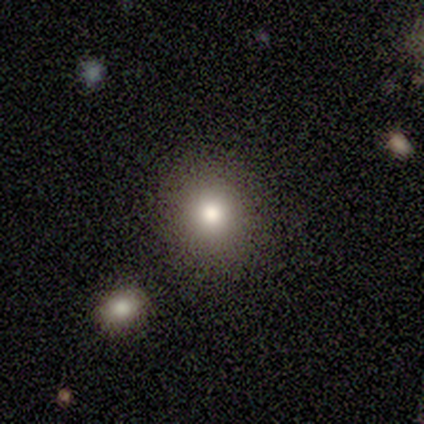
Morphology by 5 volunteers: A smooth galaxy with no disk features (100%) that is round (80%). Merging: none (80%).